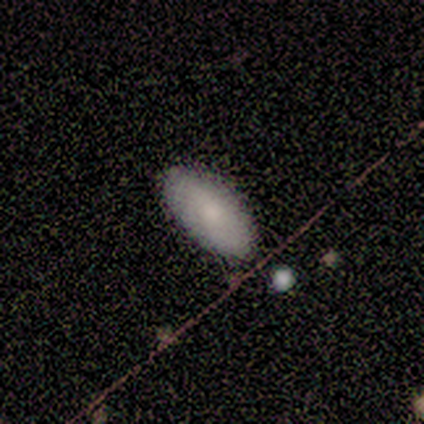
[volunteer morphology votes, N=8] Smooth or featured? 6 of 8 (75%) said smooth. How rounded? 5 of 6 (83%) said in between. Merging? 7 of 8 (88%) said none.